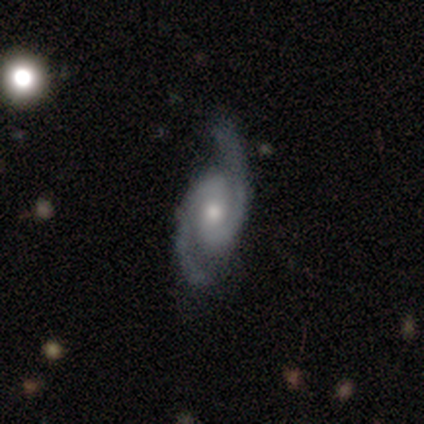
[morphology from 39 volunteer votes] Overall: featured or disk (92%). Edge-on disk: no (97%). Bar: weak (43%; no 40%). Spiral arms: yes (100%). Spiral arm count: 2 (100%). Spiral winding: medium (43%; loose 34%). Bulge size: moderate (60%; small 34%). Merging: none (76%).